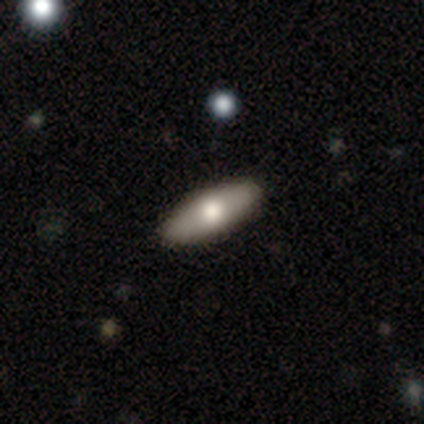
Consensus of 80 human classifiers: A smooth galaxy with no disk features (74%) that is in between round and cigar-shaped (73%). Merging: none (46%).